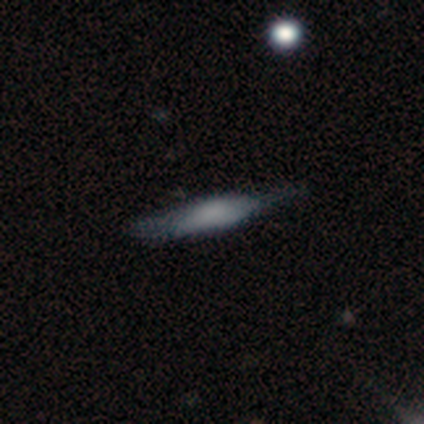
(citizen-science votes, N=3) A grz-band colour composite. It shows a featured or disk galaxy (67%) viewed edge-on (100%) with a rounded central bulge (100%). Merging: none (100%).